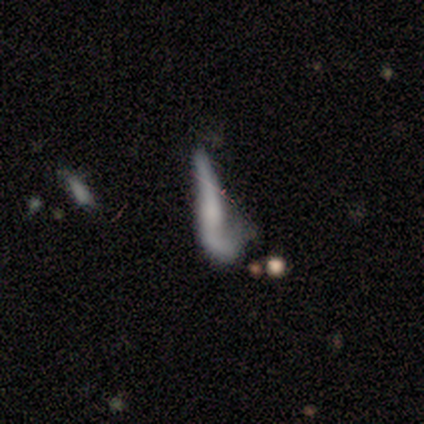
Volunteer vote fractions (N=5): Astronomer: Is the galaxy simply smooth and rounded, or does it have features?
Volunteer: smooth — 40%, tied with featured or disk at 40%.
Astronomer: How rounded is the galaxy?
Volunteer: in between — 50%, tied with cigar-shaped at 50%.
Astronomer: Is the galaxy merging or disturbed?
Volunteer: major disturbance — 75%.